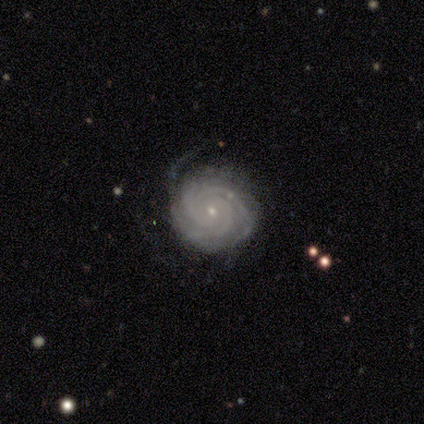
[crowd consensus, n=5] Smooth or featured?
  - featured or disk: 100% *
  - smooth: 0%
  - star or artifact: 0%
Edge-on disk?
  - no: 100% *
  - yes: 0%
Bar?
  - no: 80% *
  - weak: 20%
  - strong: 0%
Spiral arms?
  - yes: 100% *
  - no: 0%
Spiral winding?
  - tight: 100% *
  - medium: 0%
  - loose: 0%
Spiral arm count?
  - 3: 80% *
  - 4: 20%
  - 1: 0%
  - 2: 0%
  - more than 4: 0%
  - can't tell: 0%
Bulge size?
  - small: 80% *
  - moderate: 20%
  - dominant: 0%
  - large: 0%
  - none: 0%
Merging?
  - none: 40% * (tied)
  - minor disturbance: 40% * (tied)
  - major disturbance: 20%
  - merger: 0%